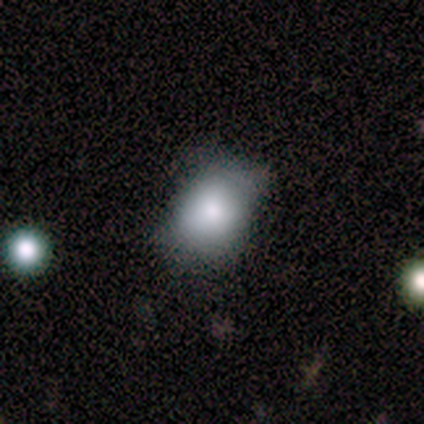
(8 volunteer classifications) This appears to be a smooth galaxy with no disk features (75%) that is in between round and cigar-shaped (67%). Merging: none (86%).